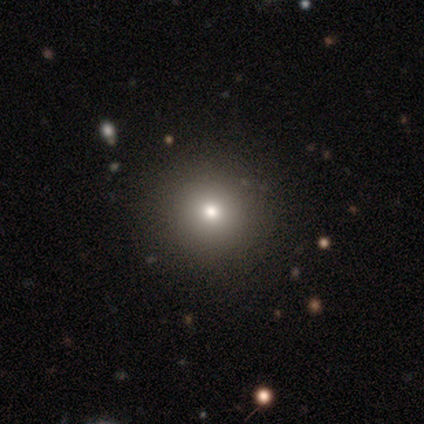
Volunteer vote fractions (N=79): Overall: smooth (68%). How rounded: round (96%). Merging: none (51%).